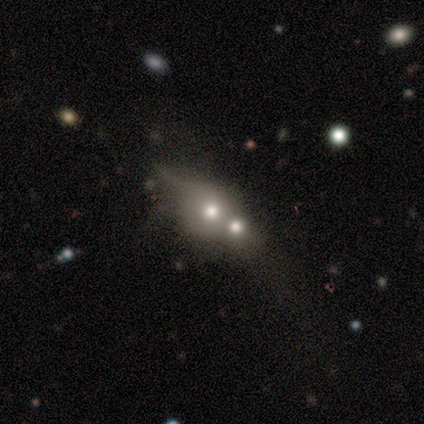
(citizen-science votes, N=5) Smooth or featured: smooth — 60% (featured or disk — 40%)
How rounded: round — 67% (in between — 33%)
Merging: merger — 80% (none — 20%)